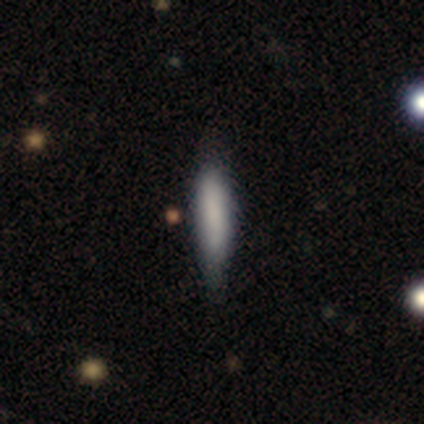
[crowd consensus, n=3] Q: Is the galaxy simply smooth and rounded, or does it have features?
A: smooth — 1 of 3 (33%, tied with featured or disk and star or artifact).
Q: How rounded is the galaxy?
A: cigar-shaped — 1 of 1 (100%).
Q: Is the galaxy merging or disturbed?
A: none — 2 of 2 (100%).